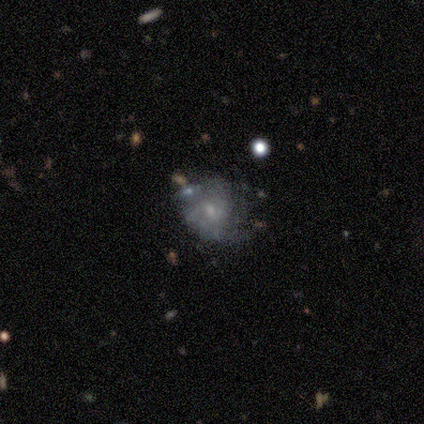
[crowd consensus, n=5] smooth_or_featured: featured or disk (p=0.80) [alt: star or artifact p=0.20]
disk_edge_on: no (p=1.00)
bar: weak (p=0.50) [tied with: no p=0.50]
has_spiral_arms: yes (p=0.50) [tied with: no p=0.50]
spiral_winding: tight (p=1.00)
spiral_arm_count: 2 (p=0.50) [tied with: 3 p=0.50]
bulge_size: small (p=1.00)
merging: none (p=0.75) [alt: minor disturbance p=0.25]